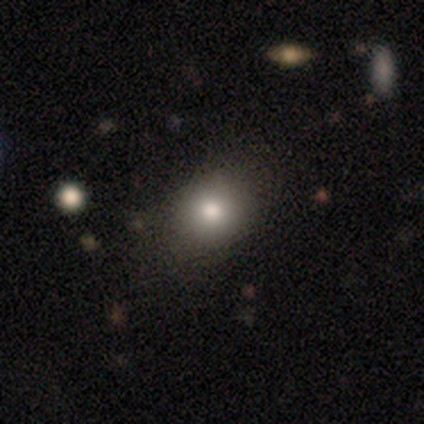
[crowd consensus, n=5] smooth 80%, star or artifact 20%, featured or disk 0%. Down the decision tree: how rounded — round (75%); merging — none (75%).